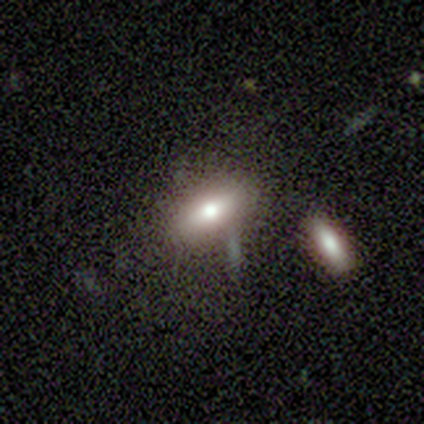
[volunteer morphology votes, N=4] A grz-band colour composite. It shows a smooth galaxy with no disk features (75%) that is in between round and cigar-shaped (100%). Merging: none (100%).